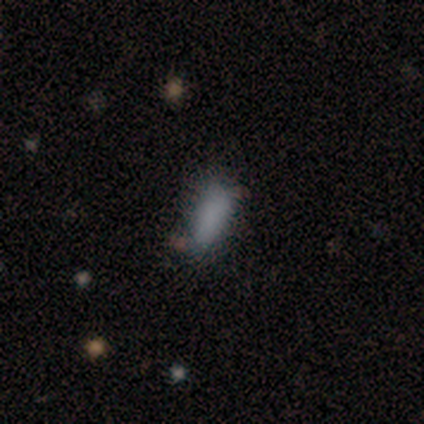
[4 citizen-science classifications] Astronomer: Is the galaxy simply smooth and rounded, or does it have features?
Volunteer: smooth — 75%.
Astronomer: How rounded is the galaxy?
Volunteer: in between — 67%.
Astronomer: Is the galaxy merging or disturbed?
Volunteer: none — 33%, tied with minor disturbance and major disturbance at 33%.